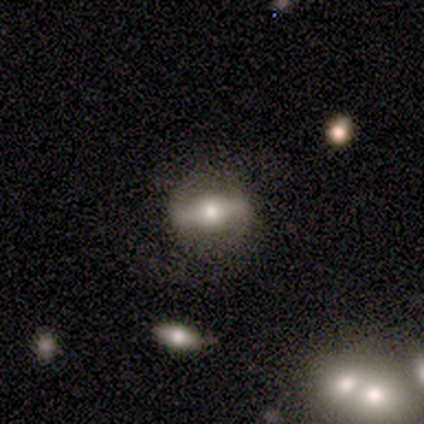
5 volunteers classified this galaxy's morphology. smooth-or-featured: featured or disk: 80% | smooth: 20% | star or artifact: 0%
  disk-edge-on: no: 100% | yes: 0%
    bar: strong: 75% | no: 25% | weak: 0%
    has-spiral-arms: no: 75% | yes: 25%
    bulge-size: moderate: 100% | dominant: 0% | large: 0% | small: 0% | none: 0%
  merging: none: 100% | minor disturbance: 0% | major disturbance: 0% | merger: 0%